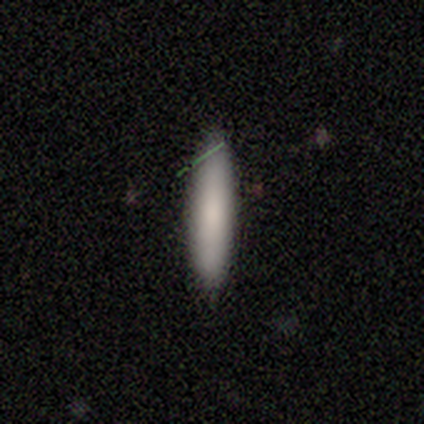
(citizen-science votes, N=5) Q: Smooth or featured?
A: smooth (100%)
Q: How rounded?
A: cigar-shaped (60%); runner-up: in between (40%)
Q: Merging?
A: none (100%)